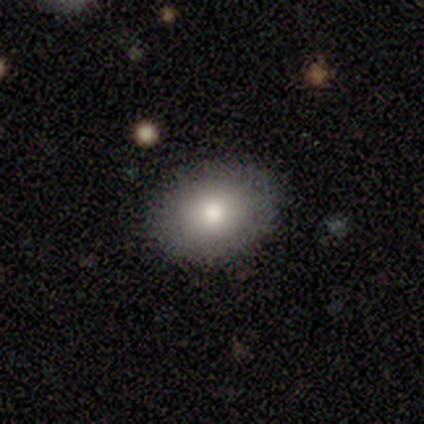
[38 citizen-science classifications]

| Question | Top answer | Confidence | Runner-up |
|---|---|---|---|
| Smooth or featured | smooth | 79% | featured or disk (11%) |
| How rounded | in between | 73% | round (23%) |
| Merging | none | 94% | minor disturbance (3%) |